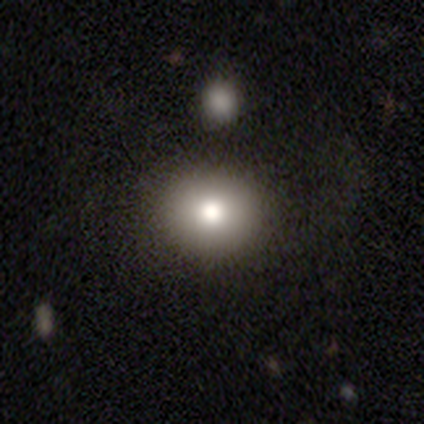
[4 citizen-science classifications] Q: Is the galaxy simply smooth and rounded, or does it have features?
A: smooth — 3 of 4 (75%).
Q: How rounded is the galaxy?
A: round — 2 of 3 (67%).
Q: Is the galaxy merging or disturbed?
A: none — 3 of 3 (100%).